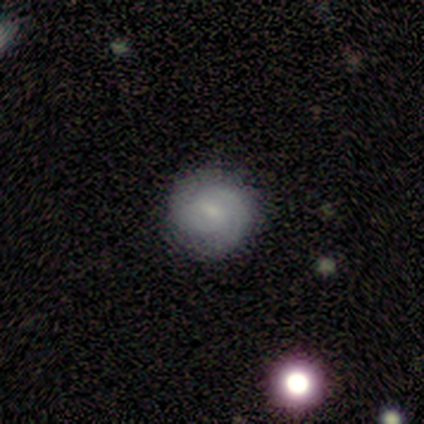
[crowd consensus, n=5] Morphology: type=featured or disk (80%); edge-on=no (100%); bar=weak (75%); spiral arms=yes (75%); winding=medium (67%); arm count=2 (100%); bulge=small (75%); merging=none (80%).